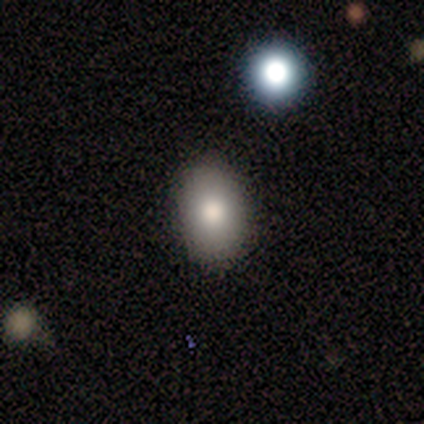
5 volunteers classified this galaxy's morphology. smooth_or_featured: smooth (p=1.00)
how_rounded: in between (p=1.00)
merging: none (p=1.00)